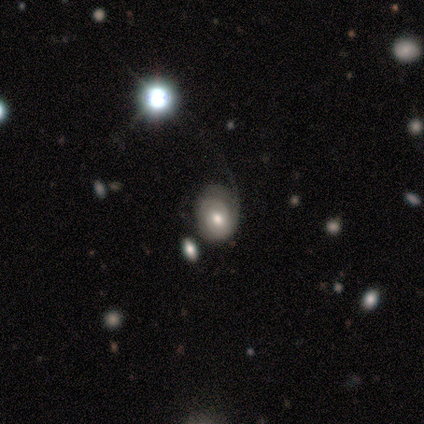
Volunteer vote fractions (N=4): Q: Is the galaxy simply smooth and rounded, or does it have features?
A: star or artifact — 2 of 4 (50%).